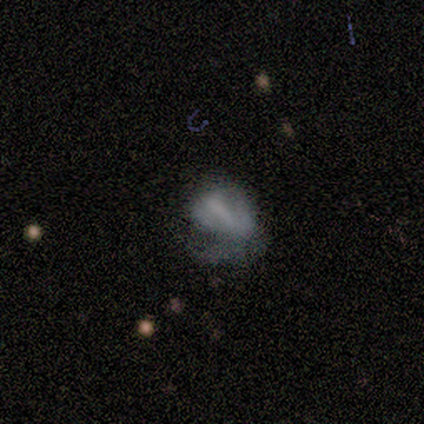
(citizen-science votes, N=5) Morphology: type=smooth (60%); roundness=in between (67%); merging=none (75%).